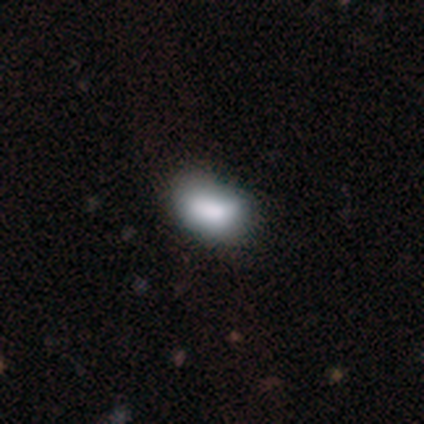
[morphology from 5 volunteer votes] smooth_or_featured: smooth (p=1.00)
how_rounded: in between (p=0.80) [alt: round p=0.20]
merging: none (p=0.60) [alt: minor disturbance p=0.40]